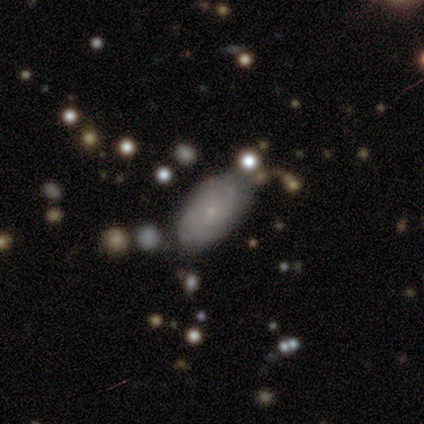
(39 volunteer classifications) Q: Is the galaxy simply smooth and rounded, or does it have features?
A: featured or disk — 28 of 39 (72%).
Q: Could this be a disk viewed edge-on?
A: no — 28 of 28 (100%).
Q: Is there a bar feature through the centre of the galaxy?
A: no — 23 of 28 (82%).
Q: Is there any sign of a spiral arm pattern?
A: yes — 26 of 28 (93%).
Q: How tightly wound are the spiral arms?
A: tight — 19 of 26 (73%).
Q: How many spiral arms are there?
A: can't tell — 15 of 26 (58%).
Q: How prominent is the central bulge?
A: small — 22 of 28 (79%).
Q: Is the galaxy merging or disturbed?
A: none — 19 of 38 (50%).